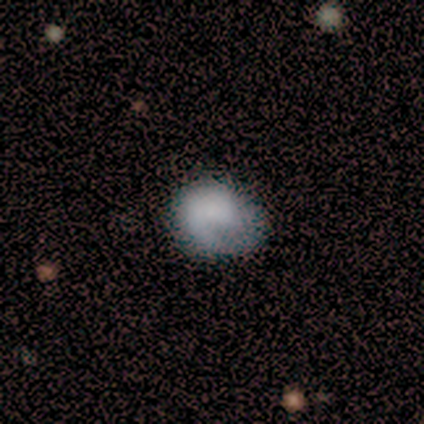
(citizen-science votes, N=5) Smooth or featured? 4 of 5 (80%) said smooth. How rounded? 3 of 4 (75%) said round. Merging? 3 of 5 (60%) said none.